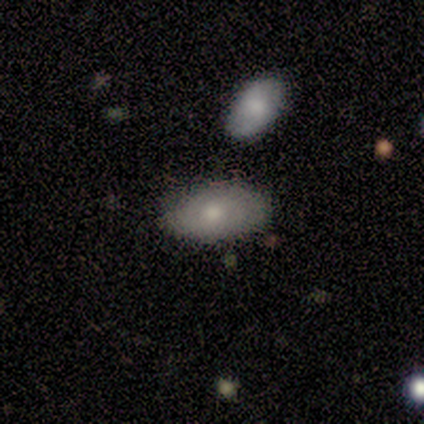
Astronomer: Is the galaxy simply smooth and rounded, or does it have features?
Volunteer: smooth — 82%.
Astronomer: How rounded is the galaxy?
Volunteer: in between — 89%.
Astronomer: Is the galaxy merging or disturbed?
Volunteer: none — 40%, tied with minor disturbance at 40%.